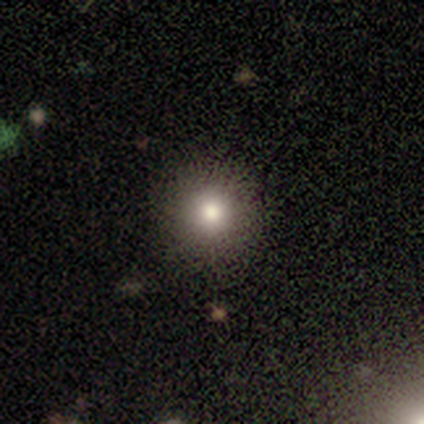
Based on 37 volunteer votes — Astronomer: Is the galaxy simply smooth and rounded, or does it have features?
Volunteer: smooth — 86%.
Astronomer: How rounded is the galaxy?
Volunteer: round — 97%.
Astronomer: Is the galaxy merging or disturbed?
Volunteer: none — 91%.